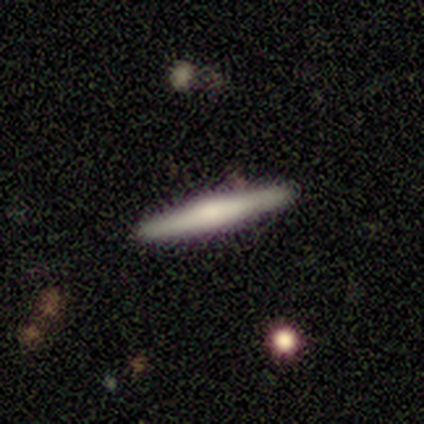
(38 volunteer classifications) Smooth or featured? 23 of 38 (61%) said featured or disk. Edge-on disk? 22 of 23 (96%) said yes. Edge-on bulge? 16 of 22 (73%) said rounded. Merging? 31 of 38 (82%) said none.